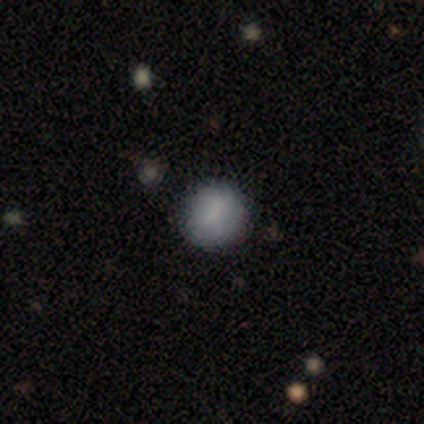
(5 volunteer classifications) Smooth or featured? 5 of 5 (100%) said smooth. How rounded? 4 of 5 (80%) said round. Merging? 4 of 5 (80%) said none.